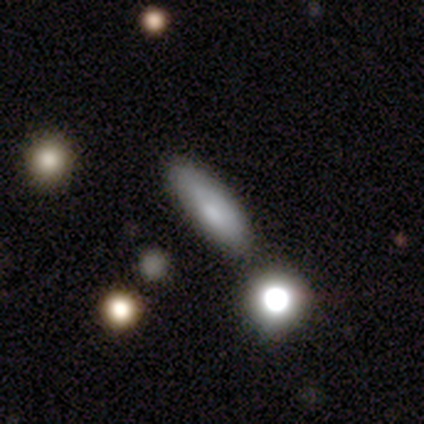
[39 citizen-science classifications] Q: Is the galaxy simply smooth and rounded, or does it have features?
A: smooth — 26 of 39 (67%).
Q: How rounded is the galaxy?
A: cigar-shaped — 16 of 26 (62%).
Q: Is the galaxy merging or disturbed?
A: none — 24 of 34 (71%).